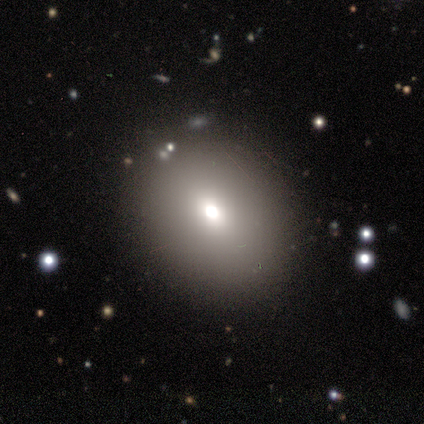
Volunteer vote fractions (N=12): This is likely a smooth galaxy (67%). How rounded: possibly round (50%, tied with in between). Merging: clearly none (80%).